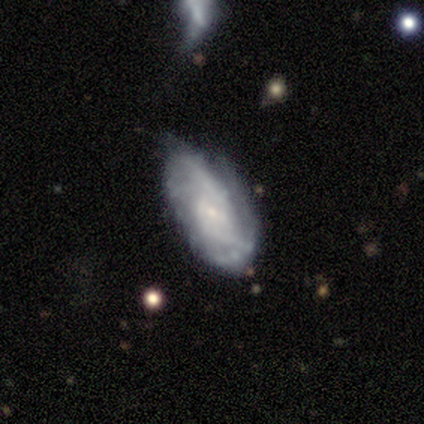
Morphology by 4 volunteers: A smooth galaxy with no disk features (50%, tied with featured or disk) that is in between round and cigar-shaped (100%).

Vote fractions:
- Smooth or featured? smooth: 50% (tied) / featured or disk: 50% (tied) / star or artifact: 0%
- How rounded? in between: 100% / round: 0% / cigar-shaped: 0%
- Merging? minor disturbance: 50% / none: 25% / major disturbance: 25% / merger: 0%